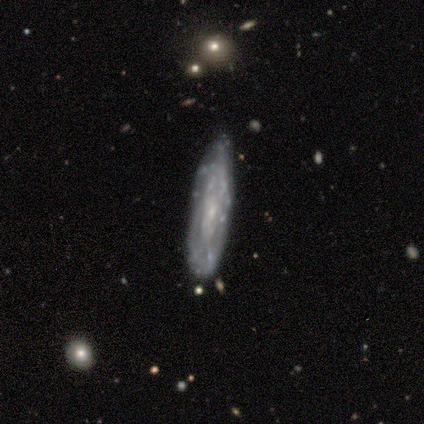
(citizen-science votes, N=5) smooth 60%, featured or disk 40%, star or artifact 0%. Down the decision tree: how rounded — cigar-shaped (100%); merging — none (60%).